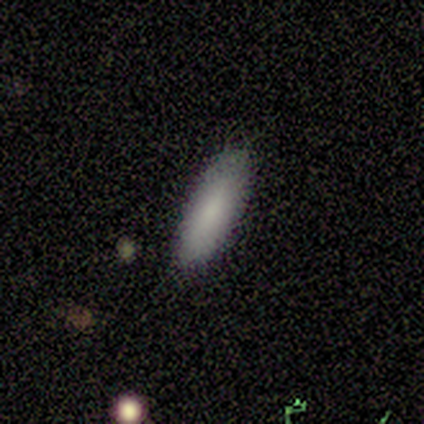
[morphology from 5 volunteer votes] type=smooth (60%); roundness=in between (67%); merging=none (67%).